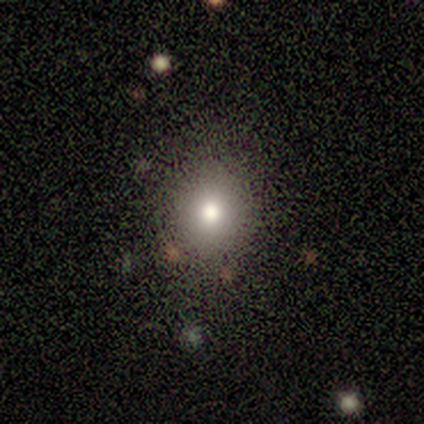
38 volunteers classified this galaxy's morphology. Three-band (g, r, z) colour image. It shows a smooth galaxy with no disk features (87%) that is round (61%). Merging: none (81%).